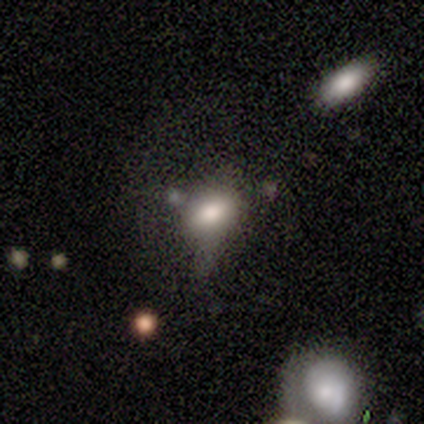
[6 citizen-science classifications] A smooth galaxy with no disk features (67%) that is in between round and cigar-shaped (75%). Merging: none (40%, tied with minor disturbance).